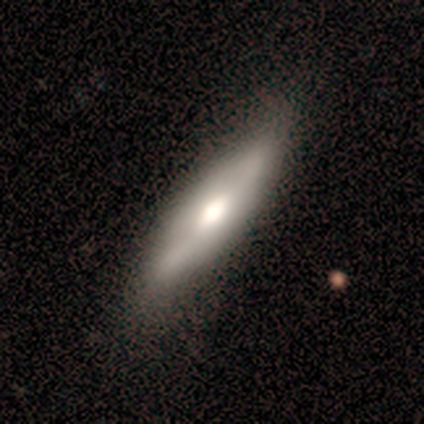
featured or disk 67%, smooth 33%, star or artifact 0%. Down the decision tree: edge-on disk — yes (50%, tied with no); edge-on bulge — rounded (100%); merging — none (67%).